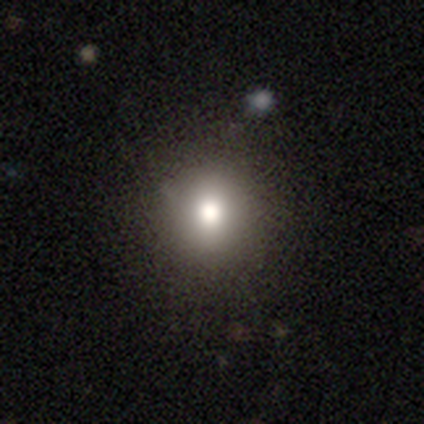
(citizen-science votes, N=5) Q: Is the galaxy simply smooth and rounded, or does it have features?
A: smooth — 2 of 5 (40%, tied with star or artifact).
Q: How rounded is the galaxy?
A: round — 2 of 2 (100%).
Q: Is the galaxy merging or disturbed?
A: none — 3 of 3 (100%).